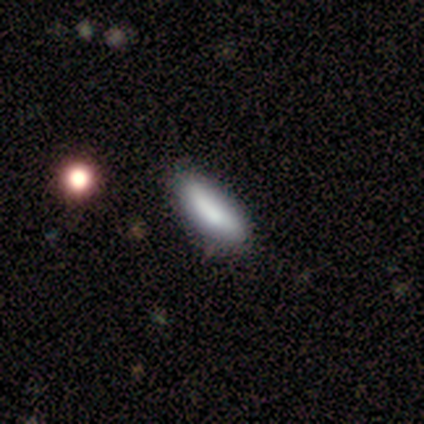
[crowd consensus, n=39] Smooth or featured? smooth (92%)
How rounded? in between (61%)
Merging? none (58%)